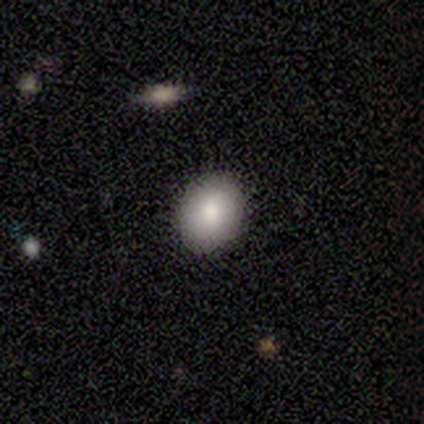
Smooth or featured: smooth — 80% (star or artifact — 20%)
How rounded: round — 75% (in between — 25%)
Merging: none — 50% (tied with minor disturbance — 50%)